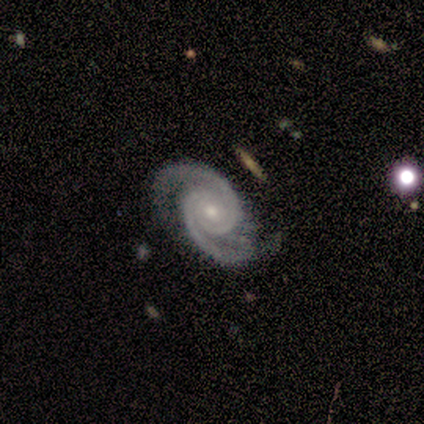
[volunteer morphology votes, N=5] smooth_or_featured: featured or disk (p=1.00)
disk_edge_on: no (p=1.00)
bar: no (p=1.00)
has_spiral_arms: yes (p=1.00)
spiral_winding: medium (p=0.60) [alt: tight p=0.40]
spiral_arm_count: 2 (p=1.00)
bulge_size: small (p=0.80) [alt: moderate p=0.20]
merging: none (p=0.80) [alt: major disturbance p=0.20]